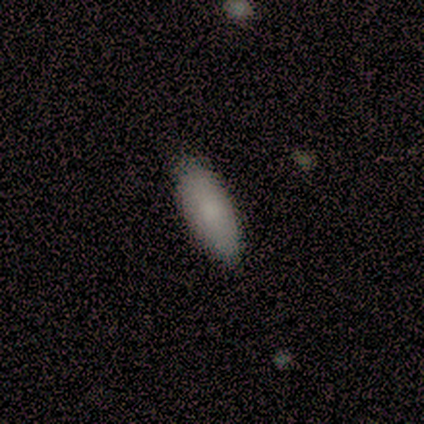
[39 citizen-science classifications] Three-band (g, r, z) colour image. It shows a smooth galaxy with no disk features (90%) that is in between round and cigar-shaped (91%). Merging: none (49%).